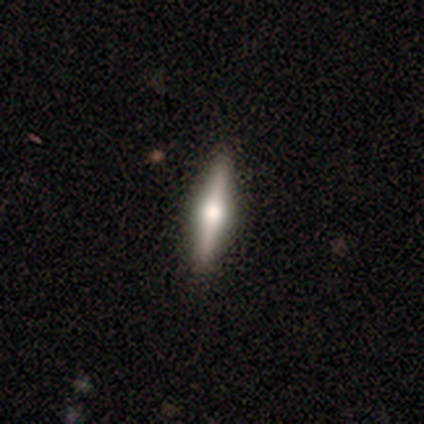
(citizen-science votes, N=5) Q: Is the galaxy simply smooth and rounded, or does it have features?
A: featured or disk — 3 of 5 (60%).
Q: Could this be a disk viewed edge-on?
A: yes — 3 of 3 (100%).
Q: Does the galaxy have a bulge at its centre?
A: rounded — 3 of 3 (100%).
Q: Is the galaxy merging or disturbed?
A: none — 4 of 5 (80%).